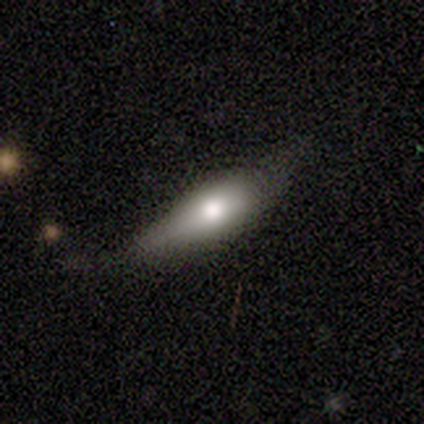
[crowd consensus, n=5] smooth-or-featured: smooth: 80% | featured or disk: 20% | star or artifact: 0%
  how-rounded: in between: 50% | round: 25% | cigar-shaped: 25%
  merging: none: 80% | minor disturbance: 20% | major disturbance: 0% | merger: 0%